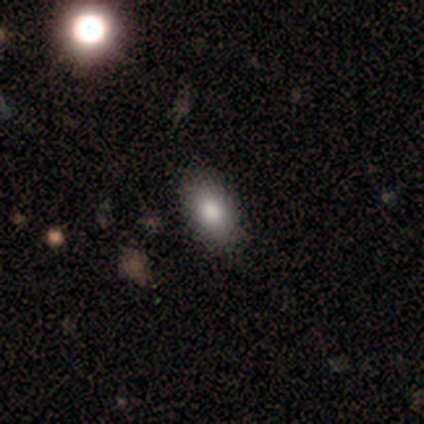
Q: Smooth or featured?
A: smooth (75%); runner-up: star or artifact (25%)
Q: How rounded?
A: in between (67%); runner-up: round (33%)
Q: Merging?
A: none (100%)